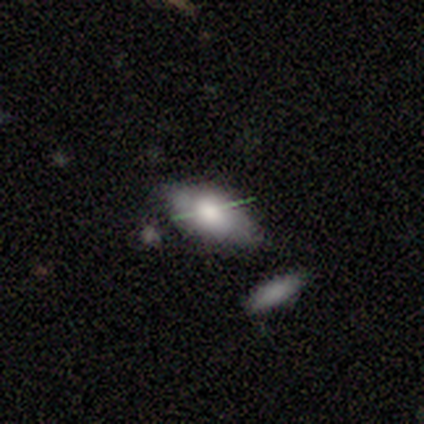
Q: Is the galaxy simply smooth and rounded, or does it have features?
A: smooth — 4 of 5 (80%).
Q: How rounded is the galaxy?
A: in between — 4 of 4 (100%).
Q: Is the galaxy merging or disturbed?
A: none — 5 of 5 (100%).